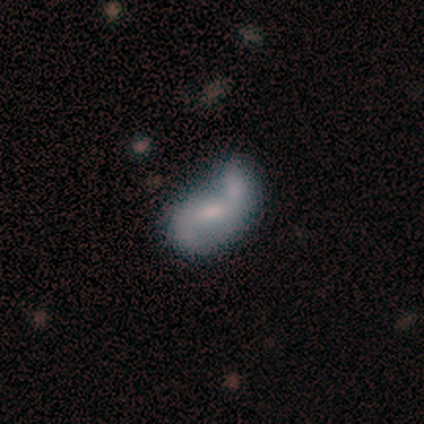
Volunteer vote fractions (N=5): Smooth or featured?
  - featured or disk: 80% *
  - smooth: 20%
  - star or artifact: 0%
Edge-on disk?
  - no: 100% *
  - yes: 0%
Bar?
  - weak: 50% * (tied)
  - no: 50% * (tied)
  - strong: 0%
Spiral arms?
  - yes: 100% *
  - no: 0%
Spiral winding?
  - medium: 75% *
  - loose: 25%
  - tight: 0%
Spiral arm count?
  - 2: 100% *
  - 1: 0%
  - 3: 0%
  - 4: 0%
  - more than 4: 0%
  - can't tell: 0%
Bulge size?
  - moderate: 75% *
  - small: 25%
  - dominant: 0%
  - large: 0%
  - none: 0%
Merging?
  - minor disturbance: 60% *
  - none: 40%
  - major disturbance: 0%
  - merger: 0%